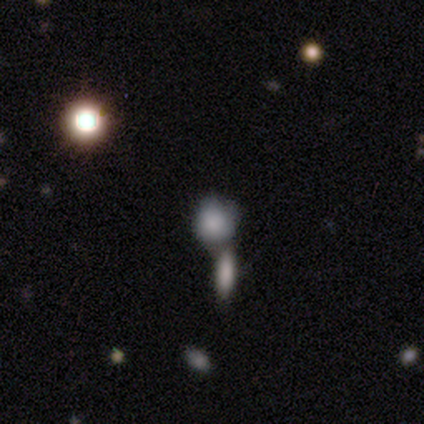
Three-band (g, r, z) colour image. It shows a smooth galaxy with no disk features (60%) that is round (67%). Merging: merger (67%).